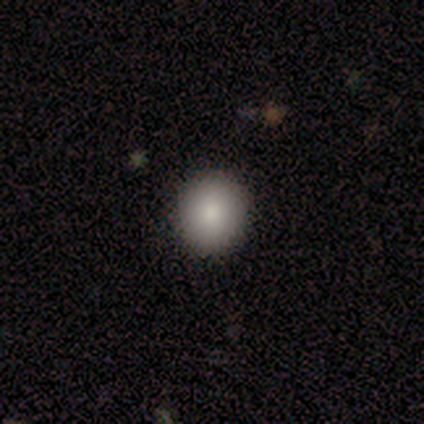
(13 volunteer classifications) Smooth or featured: smooth — 85% (star or artifact — 15%)
How rounded: round — 91% (in between — 9%)
Merging: none — 91% (minor disturbance — 9%)